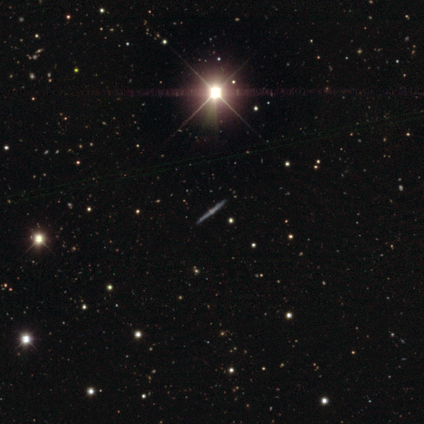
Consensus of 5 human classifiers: A featured or disk galaxy (40%, tied with star or artifact) viewed edge-on (100%) with a rounded central bulge (100%).

Vote fractions:
- Smooth or featured? featured or disk: 40% (tied) / star or artifact: 40% (tied) / smooth: 20%
- Edge-on disk? yes: 100% / no: 0%
- Edge-on bulge? rounded: 100% / boxy: 0% / none: 0%
- Merging? none: 100% / minor disturbance: 0% / major disturbance: 0% / merger: 0%